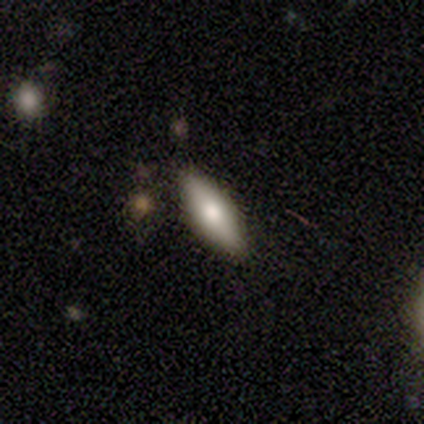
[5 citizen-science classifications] Smooth or featured?
  - smooth: 40% * (tied)
  - featured or disk: 40% * (tied)
  - star or artifact: 20%
How rounded?
  - in between: 100% *
  - round: 0%
  - cigar-shaped: 0%
Merging?
  - none: 100% *
  - minor disturbance: 0%
  - major disturbance: 0%
  - merger: 0%